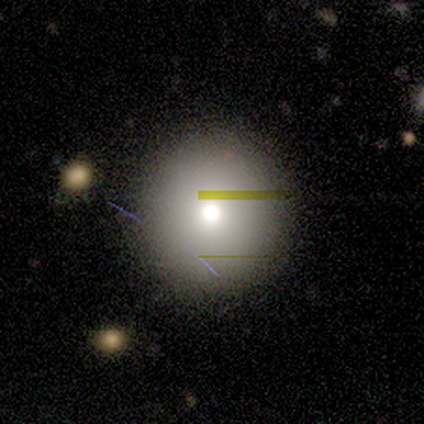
Smooth or featured?
  - smooth: 60% *
  - featured or disk: 20%
  - star or artifact: 20%
How rounded?
  - round: 100% *
  - in between: 0%
  - cigar-shaped: 0%
Merging?
  - none: 75% *
  - minor disturbance: 25%
  - major disturbance: 0%
  - merger: 0%